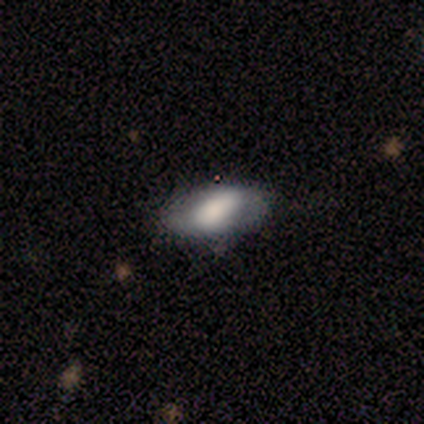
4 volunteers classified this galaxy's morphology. Overall: smooth (50%, tied with featured or disk). How rounded: in between (100%). Merging: none (75%).